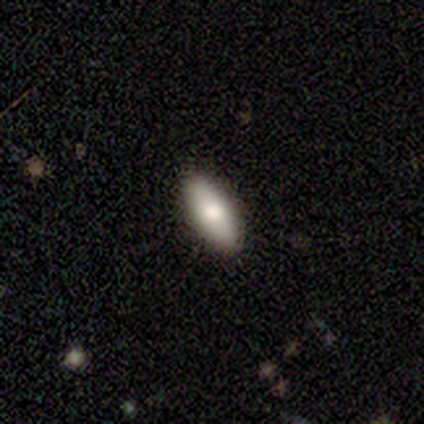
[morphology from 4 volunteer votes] Smooth or featured?
  - smooth: 100% *
  - featured or disk: 0%
  - star or artifact: 0%
How rounded?
  - in between: 100% *
  - round: 0%
  - cigar-shaped: 0%
Merging?
  - none: 100% *
  - minor disturbance: 0%
  - major disturbance: 0%
  - merger: 0%